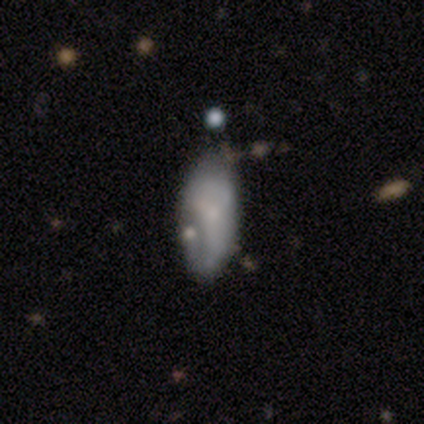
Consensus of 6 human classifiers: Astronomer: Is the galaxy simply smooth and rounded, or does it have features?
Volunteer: smooth — 50%, tied with featured or disk at 50%.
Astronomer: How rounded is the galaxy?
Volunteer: in between — 100%.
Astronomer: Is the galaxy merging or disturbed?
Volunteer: minor disturbance — 50%.